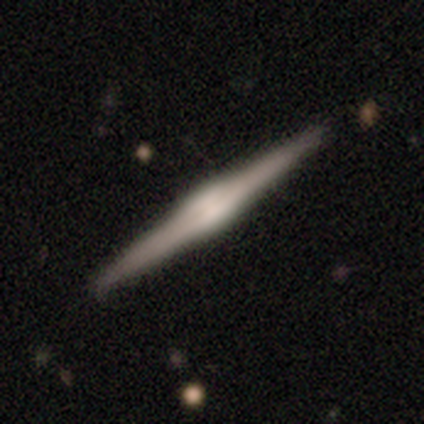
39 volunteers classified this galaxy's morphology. A featured or disk galaxy (90%) viewed edge-on (100%) with a rounded central bulge (51%).

Vote fractions:
- Smooth or featured? featured or disk: 90% / smooth: 10% / star or artifact: 0%
- Edge-on disk? yes: 100% / no: 0%
- Edge-on bulge? rounded: 51% / boxy: 46% / none: 3%
- Merging? none: 56% / minor disturbance: 5% / major disturbance: 0% / merger: 0%